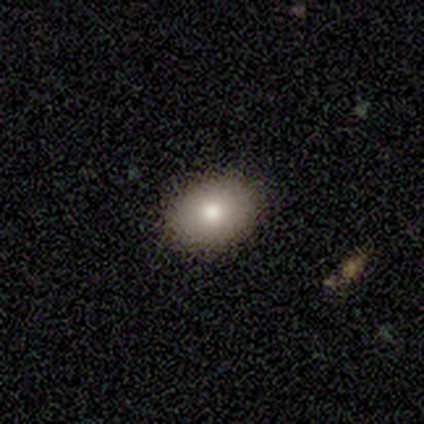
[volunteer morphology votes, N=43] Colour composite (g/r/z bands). It shows a smooth galaxy with no disk features (79%) that is in between round and cigar-shaped (65%). Merging: none (95%).